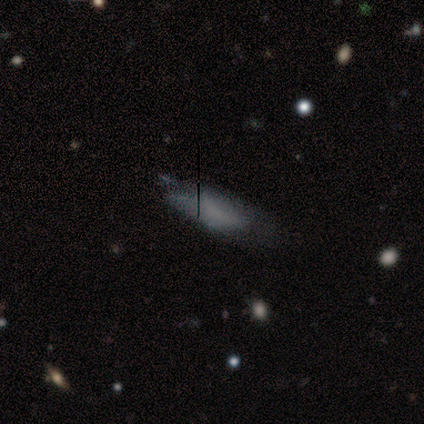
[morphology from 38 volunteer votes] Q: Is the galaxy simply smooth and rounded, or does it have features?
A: smooth — 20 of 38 (53%).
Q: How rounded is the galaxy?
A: in between — 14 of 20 (70%).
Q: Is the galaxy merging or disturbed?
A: none — 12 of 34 (35%).